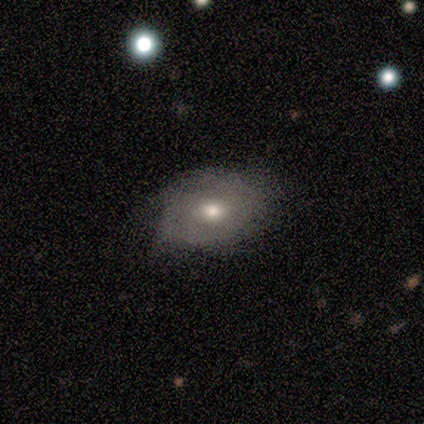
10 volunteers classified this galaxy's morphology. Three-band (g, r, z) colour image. It shows a featured or disk galaxy (60%) with no bar (100%), no spiral arms (60%) and a moderate central bulge (40%, tied with small). Merging: none (60%).